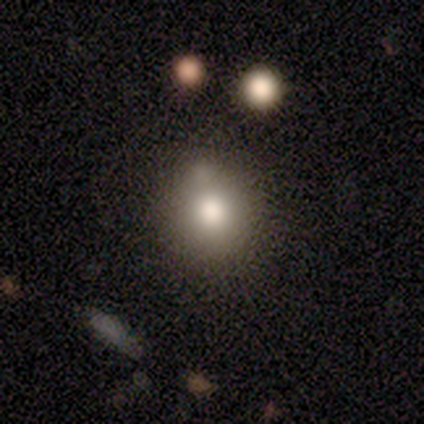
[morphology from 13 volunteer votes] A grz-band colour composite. It shows a smooth galaxy with no disk features (100%) that is round (85%). Merging: none (77%).